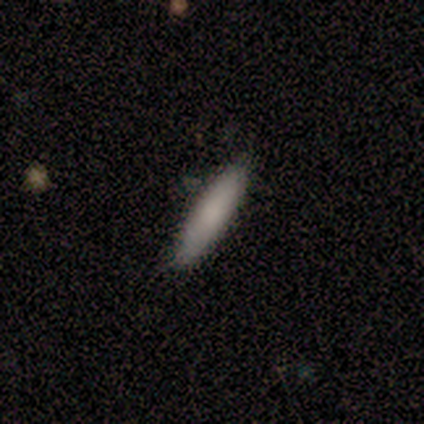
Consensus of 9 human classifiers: smooth_or_featured: smooth (p=0.89) [alt: featured or disk p=0.11]
how_rounded: cigar-shaped (p=0.88) [alt: in between p=0.12]
merging: none (p=1.00)